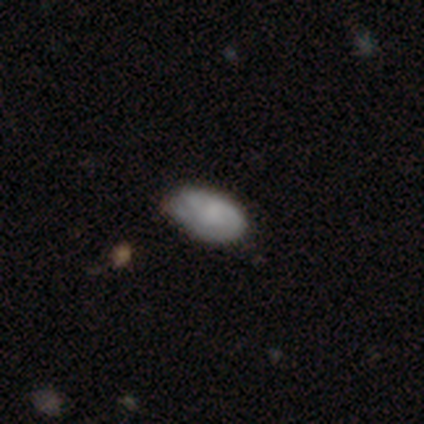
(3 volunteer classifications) Volunteers were most divided on "smooth or featured": smooth: 67%, featured or disk: 33%, star or artifact: 0%. More confident: how rounded — in between (100%); merging — none (67%).